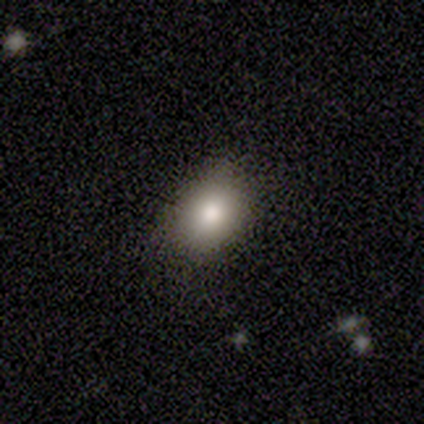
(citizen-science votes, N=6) smooth_or_featured: smooth (p=0.67) [alt: featured or disk p=0.17]
how_rounded: round (p=0.50) [tied with: in between p=0.50]
merging: none (p=0.40) [tied with: minor disturbance p=0.40]